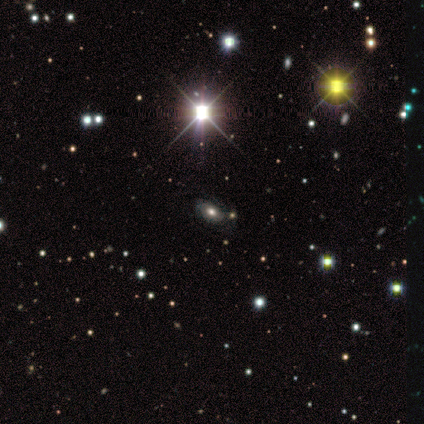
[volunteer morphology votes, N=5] Smooth or featured? star or artifact (60%)